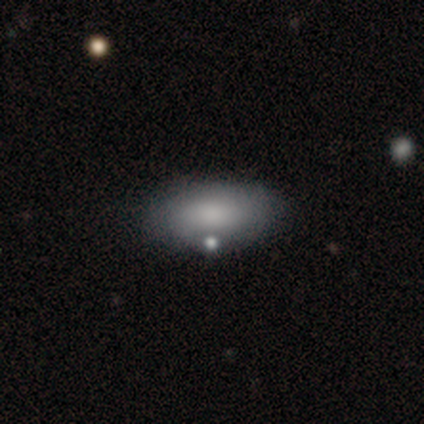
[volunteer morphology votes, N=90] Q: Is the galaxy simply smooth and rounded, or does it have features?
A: smooth — 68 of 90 (76%).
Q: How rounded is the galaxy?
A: in between — 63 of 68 (93%).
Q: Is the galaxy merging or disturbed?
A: none — 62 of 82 (76%).